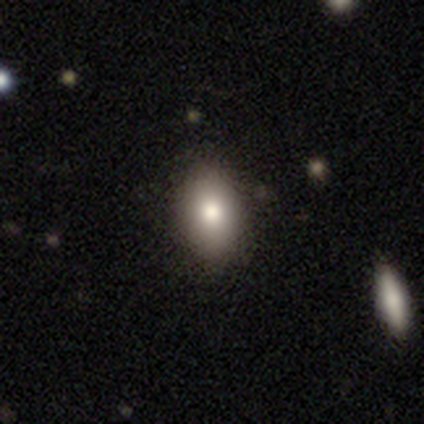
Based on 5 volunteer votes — Q: Smooth or featured?
A: smooth (60%); runner-up: featured or disk (20%)
Q: How rounded?
A: in between (67%); runner-up: round (33%)
Q: Merging?
A: none (75%); runner-up: minor disturbance (25%)